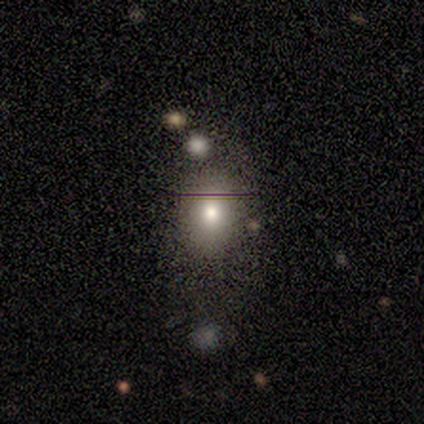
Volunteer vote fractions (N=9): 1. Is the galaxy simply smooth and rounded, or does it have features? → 89% smooth, 11% featured or disk, 0% star or artifact.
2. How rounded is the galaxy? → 62% in between, 38% round, 0% cigar-shaped.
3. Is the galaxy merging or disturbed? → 67% none, 22% merger, 11% minor disturbance, 0% major disturbance.